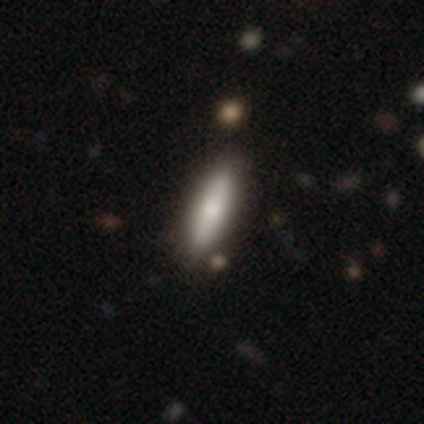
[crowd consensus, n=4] Overall: smooth (75%). How rounded: cigar-shaped (67%; in between 33%). Merging: none (100%).